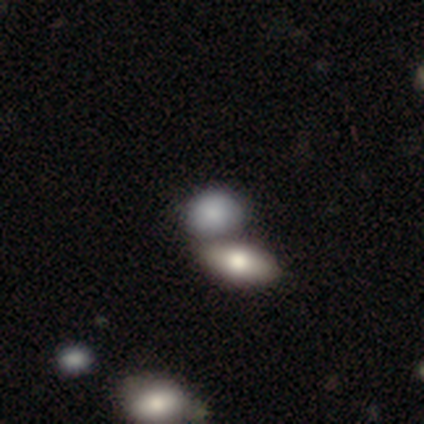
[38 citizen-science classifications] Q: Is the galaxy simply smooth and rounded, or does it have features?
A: smooth — 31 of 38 (82%).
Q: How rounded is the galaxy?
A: in between — 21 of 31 (68%).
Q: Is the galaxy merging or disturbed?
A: none — 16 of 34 (47%).